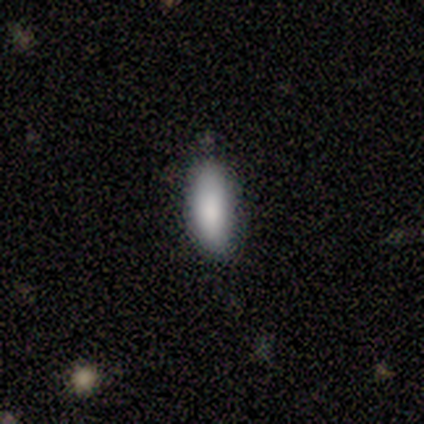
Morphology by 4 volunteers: This appears to be a smooth galaxy with no disk features (100%) that is in between round and cigar-shaped (75%). Merging: none (75%).